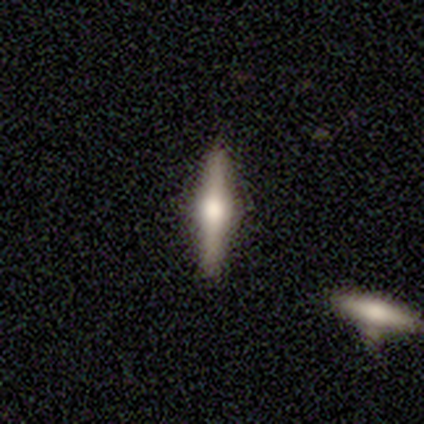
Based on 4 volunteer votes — Smooth or featured?
  - featured or disk: 75% *
  - smooth: 25%
  - star or artifact: 0%
Edge-on disk?
  - yes: 100% *
  - no: 0%
Edge-on bulge?
  - rounded: 100% *
  - boxy: 0%
  - none: 0%
Merging?
  - none: 100% *
  - minor disturbance: 0%
  - major disturbance: 0%
  - merger: 0%